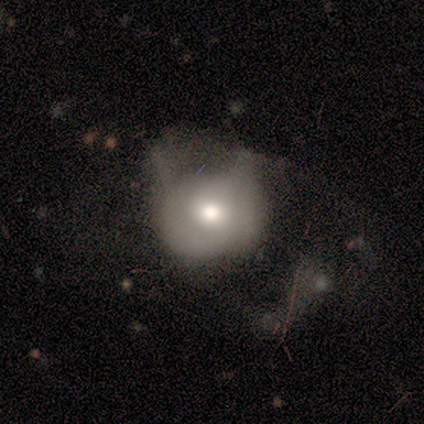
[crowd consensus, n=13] Smooth or featured: smooth — 77% (featured or disk — 23%)
How rounded: round — 70% (in between — 30%)
Merging: major disturbance — 85% (none — 8%)